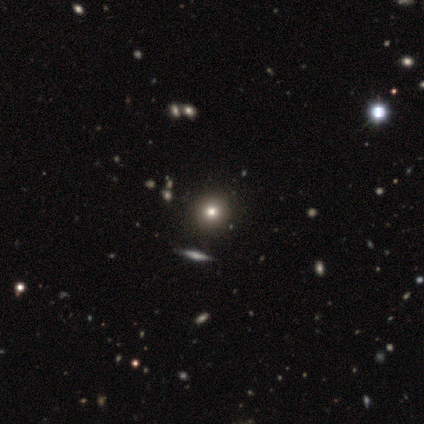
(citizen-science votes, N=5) Overall: smooth (60%; featured or disk 20%). How rounded: round (100%). Merging: none (75%).